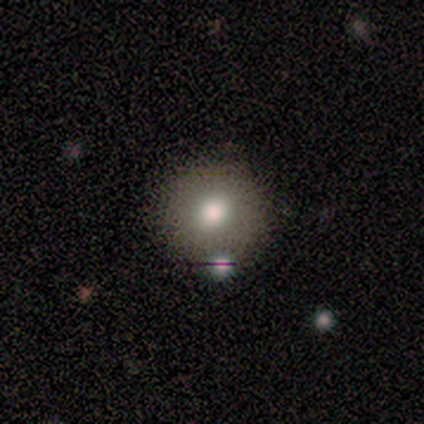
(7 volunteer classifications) Volunteers were most divided on "smooth or featured": smooth: 86%, star or artifact: 14%, featured or disk: 0%. More confident: how rounded — round (100%); merging — none (100%).